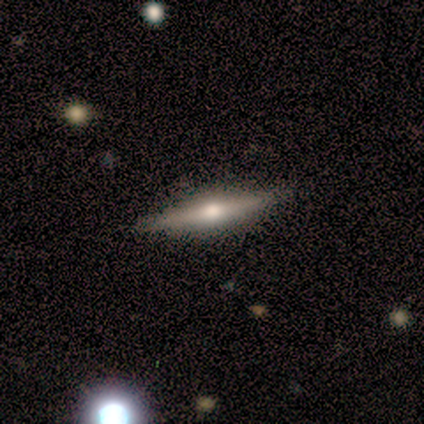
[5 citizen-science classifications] Overall: featured or disk (60%; smooth 40%). Edge-on disk: yes (67%; no 33%). Edge-on bulge: rounded (100%). Merging: none (100%).